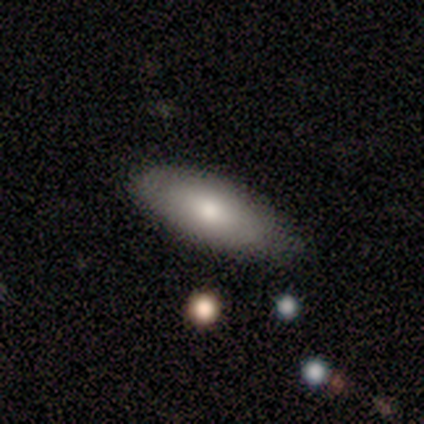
smooth_or_featured: smooth (p=0.80) [alt: star or artifact p=0.20]
how_rounded: in between (p=1.00)
merging: none (p=1.00)